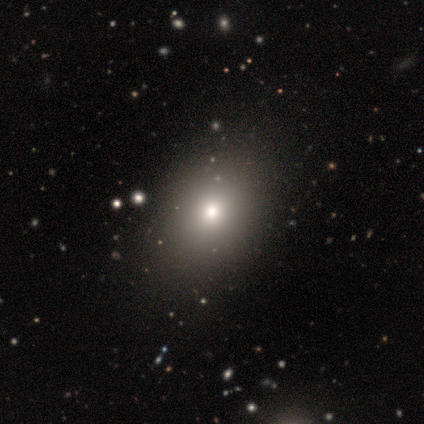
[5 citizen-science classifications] Smooth or featured? 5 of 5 (100%) said smooth. How rounded? 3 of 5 (60%) said in between. Merging? 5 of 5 (100%) said none.